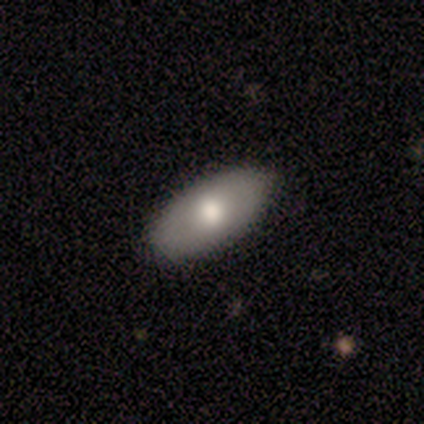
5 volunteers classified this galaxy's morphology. type=smooth (80%); roundness=in between (100%); merging=none (80%).